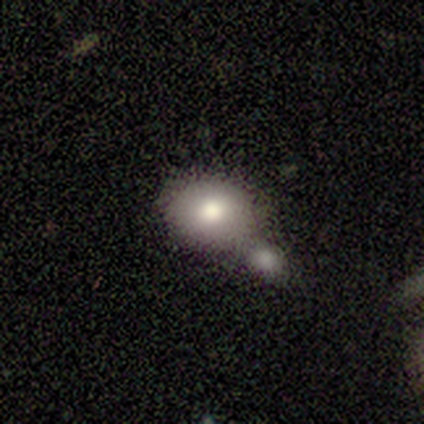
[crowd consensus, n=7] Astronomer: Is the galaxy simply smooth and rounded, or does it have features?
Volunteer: smooth — 86%.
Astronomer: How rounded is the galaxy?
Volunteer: round — 50%, tied with in between at 50%.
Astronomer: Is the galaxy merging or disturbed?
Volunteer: merger — 83%.